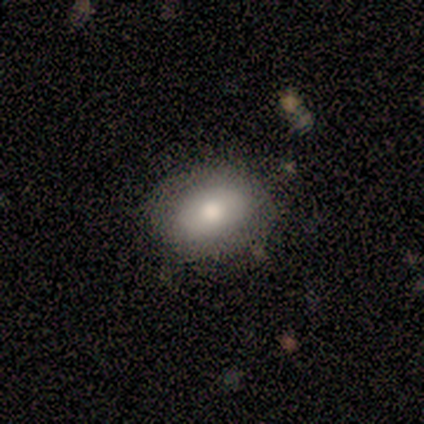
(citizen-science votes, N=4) This appears to be a smooth galaxy with no disk features (100%) that is round (50%, tied with in between). Merging: none (75%).